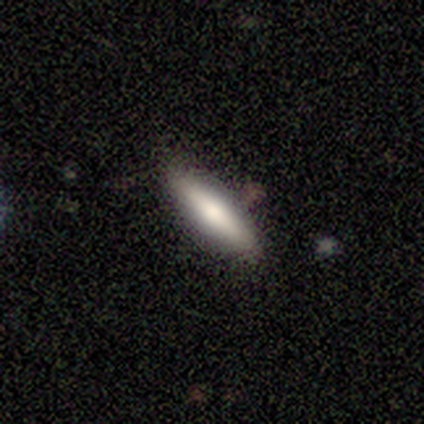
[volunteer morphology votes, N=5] Smooth or featured?
  - smooth: 60% *
  - featured or disk: 40%
  - star or artifact: 0%
How rounded?
  - in between: 67% *
  - cigar-shaped: 33%
  - round: 0%
Merging?
  - none: 80% *
  - minor disturbance: 20%
  - major disturbance: 0%
  - merger: 0%